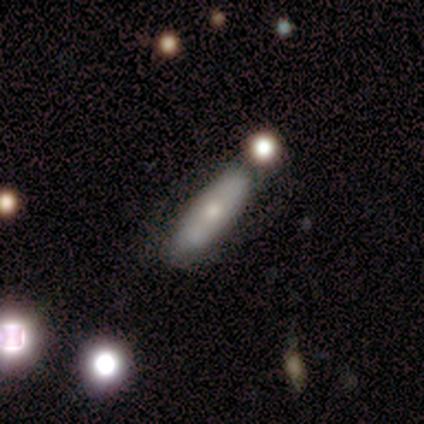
Overall: smooth (100%). How rounded: in between (67%; cigar-shaped 33%). Merging: none (67%; merger 33%).